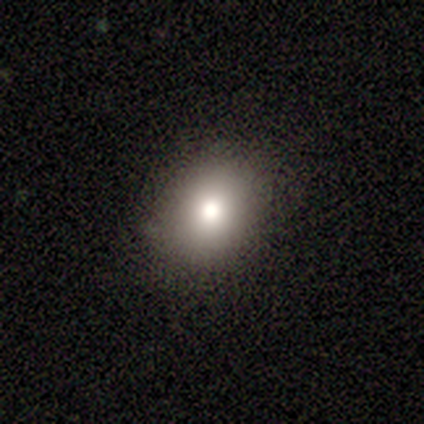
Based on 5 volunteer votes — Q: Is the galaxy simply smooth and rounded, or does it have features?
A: smooth — 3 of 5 (60%).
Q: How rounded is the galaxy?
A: round — 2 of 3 (67%).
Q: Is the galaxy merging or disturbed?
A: none — 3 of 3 (100%).